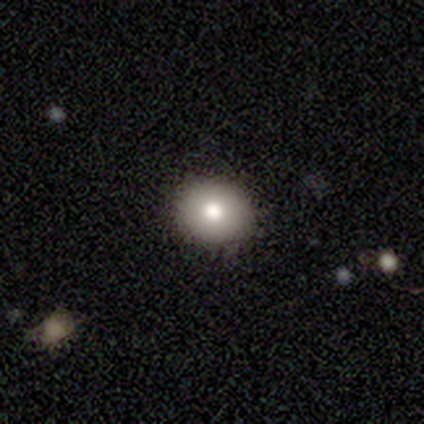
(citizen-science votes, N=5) smooth 80%, star or artifact 20%, featured or disk 0%. Down the decision tree: how rounded — round (100%); merging — none (100%).